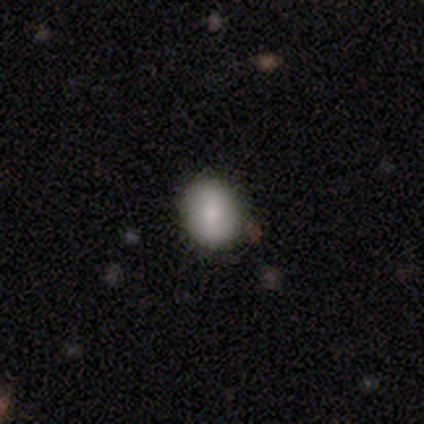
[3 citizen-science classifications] This is likely a smooth galaxy (67%). How rounded: clearly in between (100%). Merging: marginally none (33%, tied with minor disturbance and major disturbance).